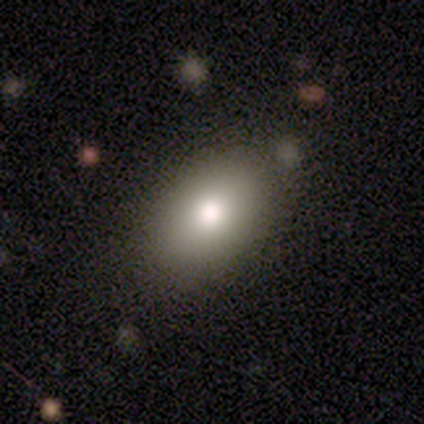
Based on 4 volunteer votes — Smooth or featured?
  - smooth: 100% *
  - featured or disk: 0%
  - star or artifact: 0%
How rounded?
  - in between: 100% *
  - round: 0%
  - cigar-shaped: 0%
Merging?
  - none: 100% *
  - minor disturbance: 0%
  - major disturbance: 0%
  - merger: 0%